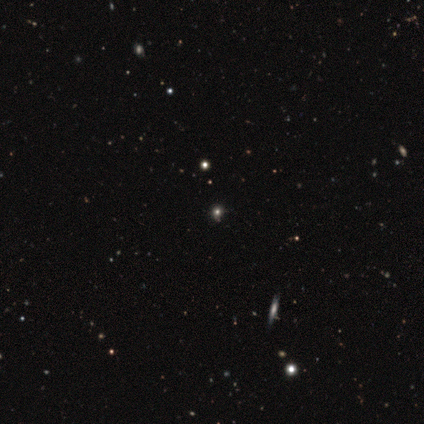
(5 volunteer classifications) Morphology: type=star or artifact (80%).